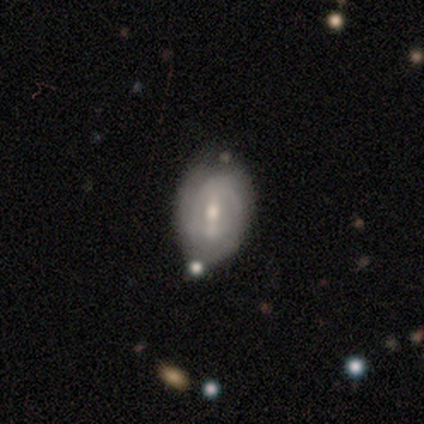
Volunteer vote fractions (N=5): Volunteers were most divided on "bar": strong: 60%, weak: 40%, no: 0%. More confident: smooth or featured — featured or disk (100%); edge-on disk — no (100%); merging — none (100%); spiral winding — tight (67%); spiral arm count — can't tell (67%); spiral arms — yes (60%); bulge size — moderate (60%).